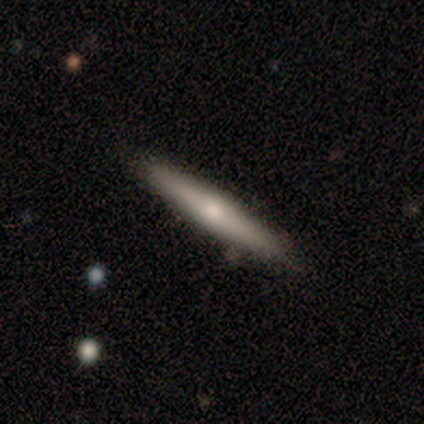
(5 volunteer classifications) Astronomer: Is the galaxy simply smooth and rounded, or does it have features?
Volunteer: featured or disk — 80%.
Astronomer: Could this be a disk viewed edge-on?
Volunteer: yes — 100%.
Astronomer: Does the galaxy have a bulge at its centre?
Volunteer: rounded — 100%.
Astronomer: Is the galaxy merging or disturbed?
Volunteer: none — 100%.